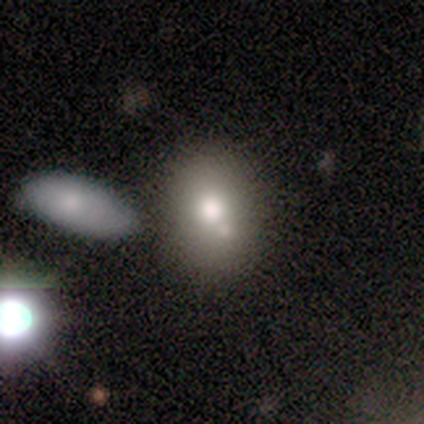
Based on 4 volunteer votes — smooth-or-featured: smooth: 100% | featured or disk: 0% | star or artifact: 0%
  how-rounded: round: 50% (tied) | in between: 50% (tied) | cigar-shaped: 0%
  merging: none: 50% (tied) | minor disturbance: 50% (tied) | major disturbance: 0% | merger: 0%